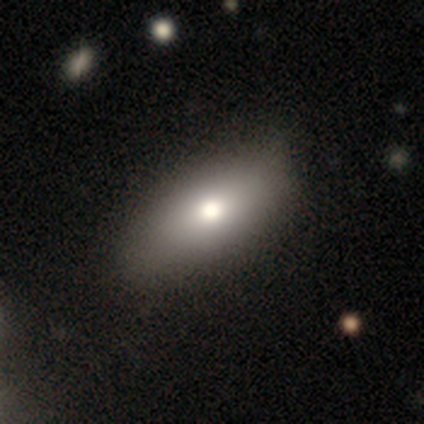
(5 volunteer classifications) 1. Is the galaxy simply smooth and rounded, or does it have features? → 100% smooth, 0% featured or disk, 0% star or artifact.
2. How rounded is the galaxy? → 80% in between, 20% cigar-shaped, 0% round.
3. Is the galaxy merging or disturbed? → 60% none, 40% minor disturbance, 0% major disturbance, 0% merger.